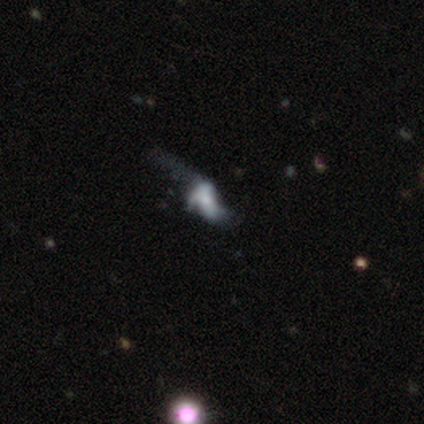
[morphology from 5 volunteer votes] smooth-or-featured: featured or disk: 60% | smooth: 20% | star or artifact: 20%
  disk-edge-on: no: 100% | yes: 0%
    bar: no: 67% | weak: 33% | strong: 0%
    has-spiral-arms: no: 67% | yes: 33%
    bulge-size: large: 33% (tied) | small: 33% (tied) | none: 33% (tied) | dominant: 0% | moderate: 0%
  merging: major disturbance: 75% | merger: 25% | none: 0% | minor disturbance: 0%